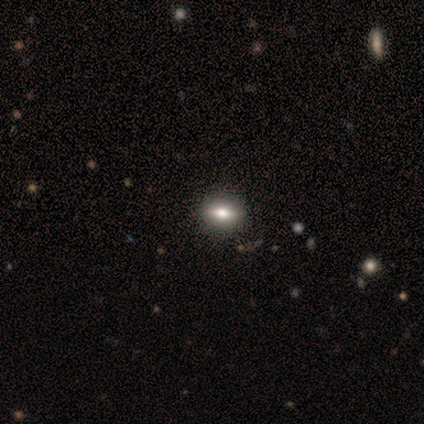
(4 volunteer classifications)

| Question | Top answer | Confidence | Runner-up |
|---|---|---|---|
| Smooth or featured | featured or disk | 100% | — |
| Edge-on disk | yes | 100% | — |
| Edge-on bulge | rounded | 75% | boxy (25%) |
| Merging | none | 75% | minor disturbance (25%) |